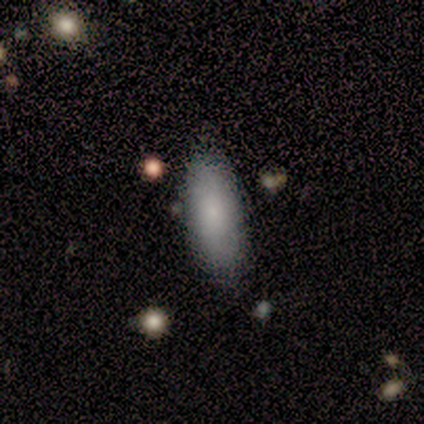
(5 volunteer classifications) smooth-or-featured: smooth: 100% | featured or disk: 0% | star or artifact: 0%
  how-rounded: in between: 80% | cigar-shaped: 20% | round: 0%
  merging: none: 100% | minor disturbance: 0% | major disturbance: 0% | merger: 0%